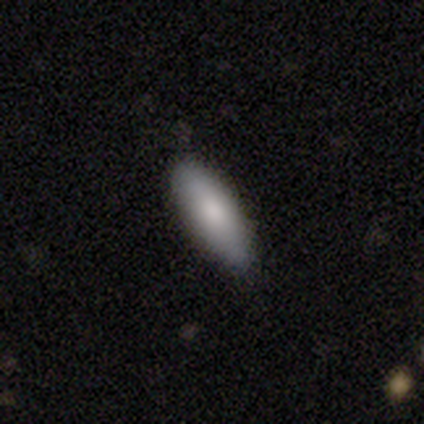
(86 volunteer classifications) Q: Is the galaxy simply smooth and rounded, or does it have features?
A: smooth — 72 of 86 (84%).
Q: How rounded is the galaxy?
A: in between — 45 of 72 (62%).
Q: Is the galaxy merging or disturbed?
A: none — 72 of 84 (86%).